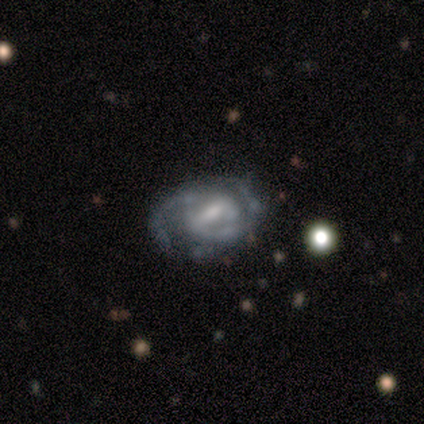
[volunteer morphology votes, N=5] Volunteers were most divided on "spiral winding": medium: 67%, loose: 33%, tight: 0%. More confident: edge-on disk — no (100%); spiral arm count — 2 (100%); smooth or featured — featured or disk (80%); bar — weak (75%); spiral arms — yes (75%); bulge size — small (75%); merging — none (60%).